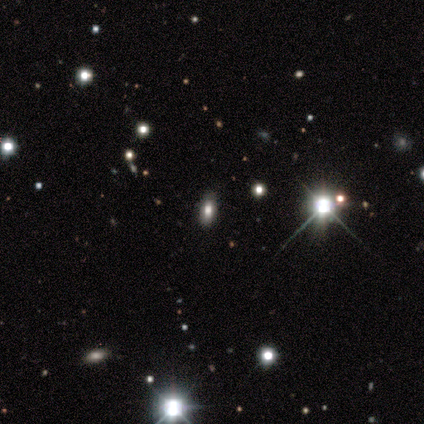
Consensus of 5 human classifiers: Morphology: type=star or artifact (60%).